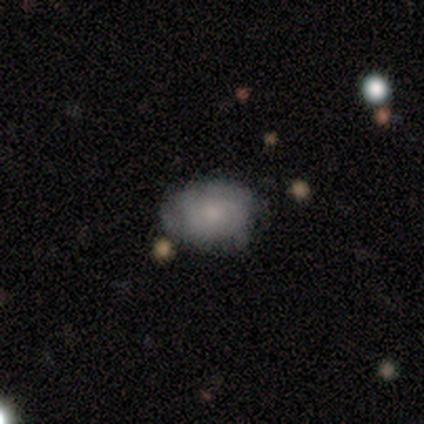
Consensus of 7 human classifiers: Smooth or featured? 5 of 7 (71%) said smooth. How rounded? 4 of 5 (80%) said in between. Merging? 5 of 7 (71%) said none.